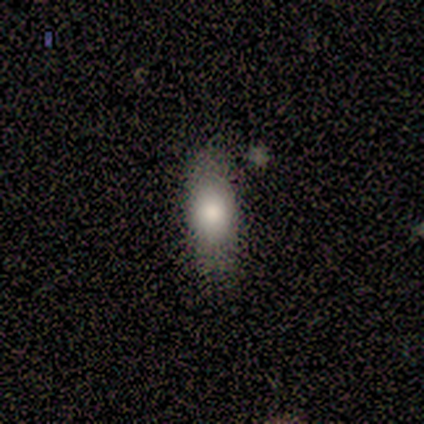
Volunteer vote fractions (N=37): smooth-or-featured: smooth: 89% | featured or disk: 5% | star or artifact: 5%
  how-rounded: in between: 73% | cigar-shaped: 24% | round: 3%
  merging: none: 86% | minor disturbance: 9% | major disturbance: 6% | merger: 0%